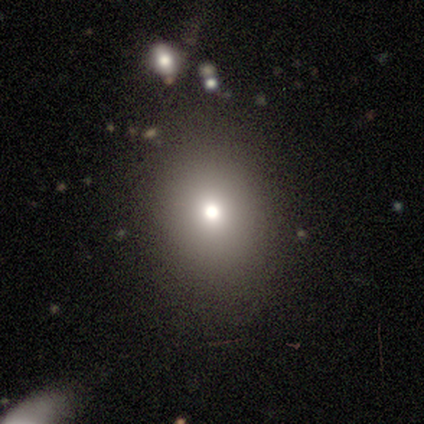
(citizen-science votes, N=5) Morphology: type=smooth (60%); roundness=round (67%); merging=none (100%).